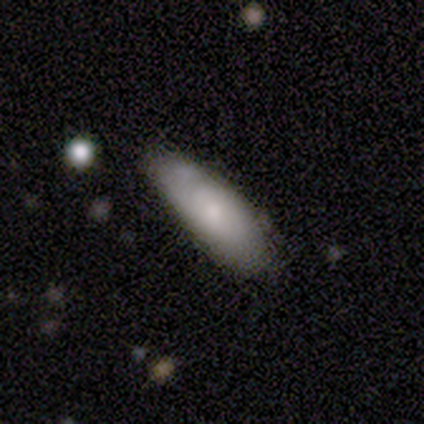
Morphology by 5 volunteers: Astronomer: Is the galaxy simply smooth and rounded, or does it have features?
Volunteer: smooth — 100%.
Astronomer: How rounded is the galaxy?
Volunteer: in between — 60% (runner-up: cigar-shaped, 40%).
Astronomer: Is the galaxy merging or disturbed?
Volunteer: none — 100%.